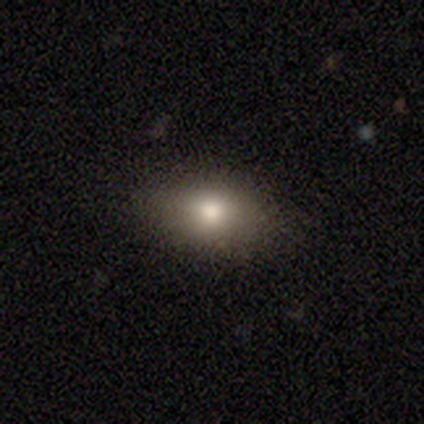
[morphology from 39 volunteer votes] This is clearly a smooth galaxy (82%). How rounded: likely in between (78%). Merging: clearly none (83%).